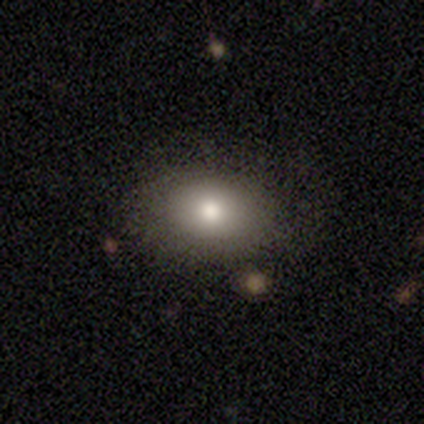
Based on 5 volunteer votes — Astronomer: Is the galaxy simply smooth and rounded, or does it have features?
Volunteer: smooth — 100%.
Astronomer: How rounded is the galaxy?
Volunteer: in between — 60% (runner-up: round, 40%).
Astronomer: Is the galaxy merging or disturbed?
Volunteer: none — 60% (runner-up: minor disturbance, 40%).